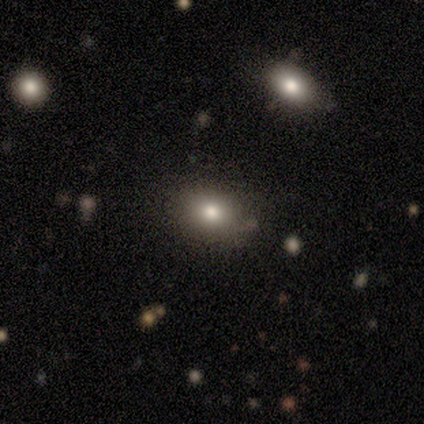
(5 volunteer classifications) A smooth galaxy with no disk features (60%) that is in between round and cigar-shaped (100%).

Vote fractions:
- Smooth or featured? smooth: 60% / featured or disk: 40% / star or artifact: 0%
- How rounded? in between: 100% / round: 0% / cigar-shaped: 0%
- Merging? none: 100% / minor disturbance: 0% / major disturbance: 0% / merger: 0%